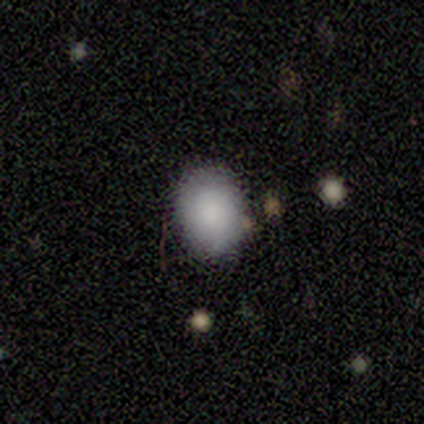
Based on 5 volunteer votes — Smooth or featured: smooth — 80% (featured or disk — 20%)
How rounded: round — 50% (tied with in between — 50%)
Merging: none — 100%